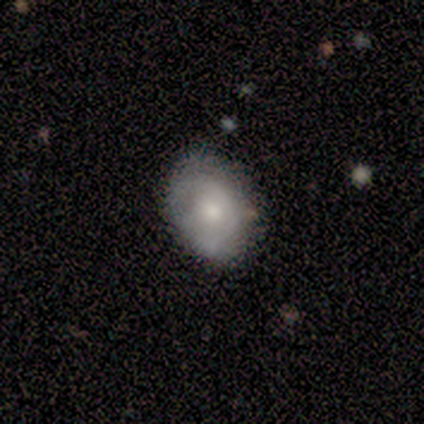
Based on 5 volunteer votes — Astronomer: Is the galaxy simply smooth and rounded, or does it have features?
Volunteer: featured or disk — 60%.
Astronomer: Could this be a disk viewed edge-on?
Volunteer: no — 100%.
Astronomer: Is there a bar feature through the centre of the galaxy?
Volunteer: no — 67%.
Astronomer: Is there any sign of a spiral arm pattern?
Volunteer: no — 67%.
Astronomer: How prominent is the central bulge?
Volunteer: large — 67%.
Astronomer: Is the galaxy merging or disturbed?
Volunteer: none — 100%.